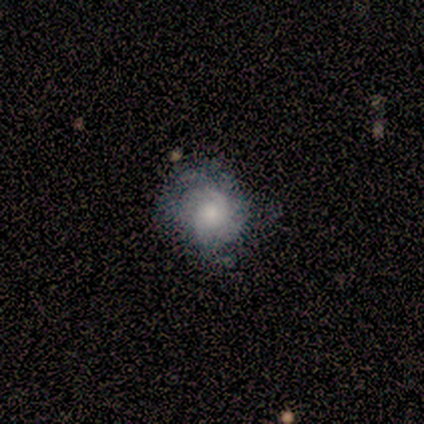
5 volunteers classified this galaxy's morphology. A smooth galaxy with no disk features (60%) that is round (67%).

Vote fractions:
- Smooth or featured? smooth: 60% / featured or disk: 40% / star or artifact: 0%
- How rounded? round: 67% / in between: 33% / cigar-shaped: 0%
- Merging? none: 60% / minor disturbance: 20% / major disturbance: 20% / merger: 0%